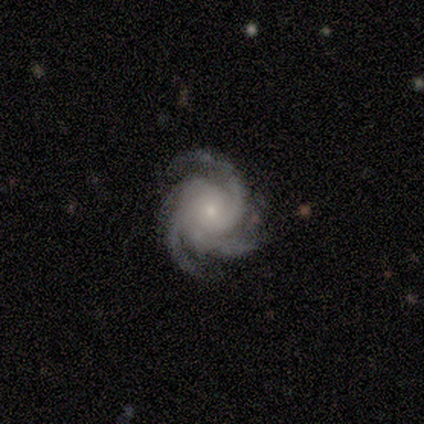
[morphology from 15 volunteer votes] This appears to be a featured or disk galaxy (100%) with no bar (87%), 3 (67%) tight (73%) spiral arms (100%) and a small central bulge (80%). Merging: none (67%).